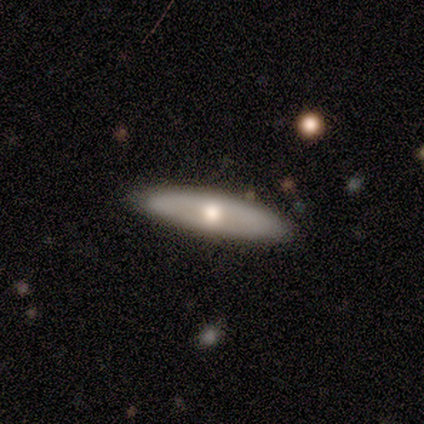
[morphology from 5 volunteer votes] Q: Smooth or featured?
A: smooth (80%); runner-up: featured or disk (20%)
Q: How rounded?
A: cigar-shaped (75%); runner-up: in between (25%)
Q: Merging?
A: none (80%); runner-up: minor disturbance (20%)